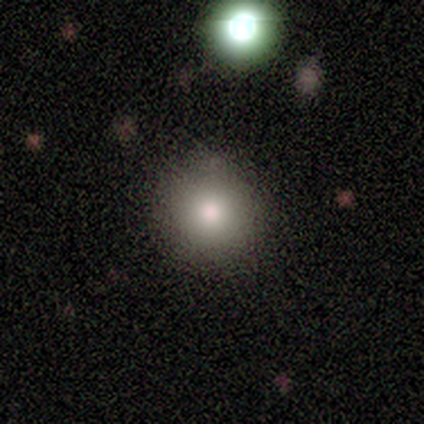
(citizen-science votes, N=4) This appears to be a smooth galaxy with no disk features (75%) that is round (100%). Merging: none (100%).